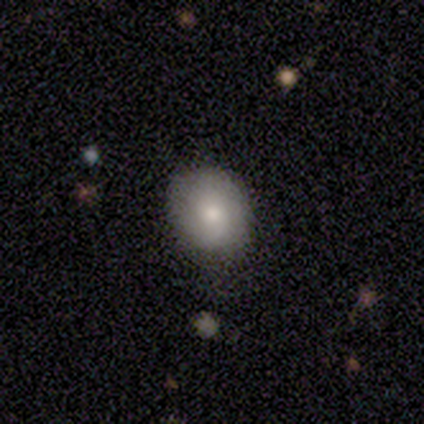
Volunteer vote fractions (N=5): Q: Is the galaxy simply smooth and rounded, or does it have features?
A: smooth — 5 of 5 (100%).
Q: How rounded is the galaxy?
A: in between — 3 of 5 (60%).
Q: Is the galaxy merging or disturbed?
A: none — 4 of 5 (80%).